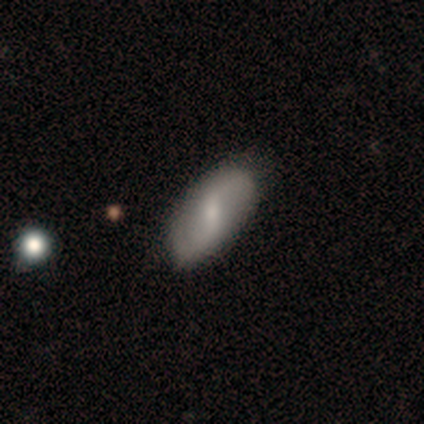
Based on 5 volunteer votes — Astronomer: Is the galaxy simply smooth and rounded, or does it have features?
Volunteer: smooth — 60% (runner-up: featured or disk, 40%).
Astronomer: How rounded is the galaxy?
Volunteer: in between — 100%.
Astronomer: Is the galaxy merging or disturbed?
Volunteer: none — 80%.